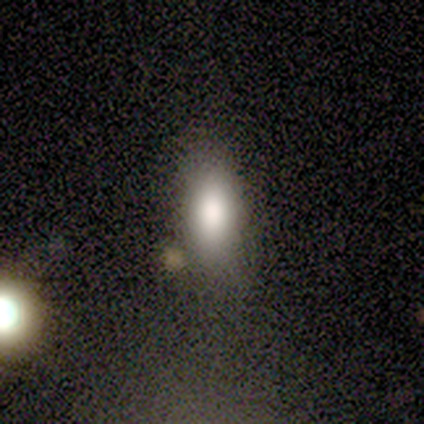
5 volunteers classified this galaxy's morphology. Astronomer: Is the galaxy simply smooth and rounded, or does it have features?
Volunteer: smooth — 80%.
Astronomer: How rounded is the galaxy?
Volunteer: in between — 100%.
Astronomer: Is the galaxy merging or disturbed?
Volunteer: none — 75%.